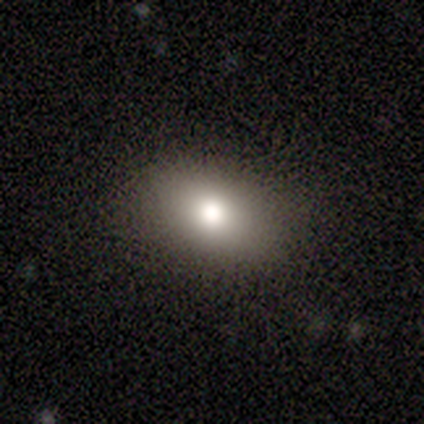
Smooth or featured? 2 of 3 (67%) said smooth. How rounded? 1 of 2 (50%, tied with in between) said round. Merging? 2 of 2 (100%) said none.